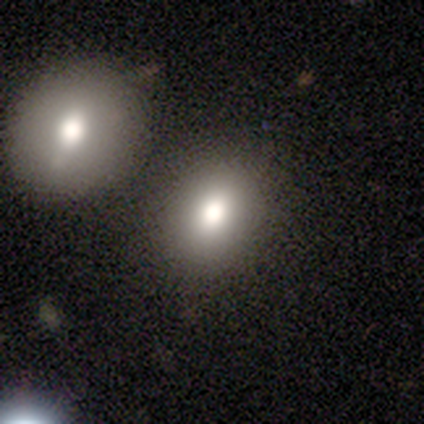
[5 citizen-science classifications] A smooth galaxy with no disk features (80%) that is round (50%, tied with in between).

Vote fractions:
- Smooth or featured? smooth: 80% / featured or disk: 20% / star or artifact: 0%
- How rounded? round: 50% (tied) / in between: 50% (tied) / cigar-shaped: 0%
- Merging? none: 80% / merger: 20% / minor disturbance: 0% / major disturbance: 0%